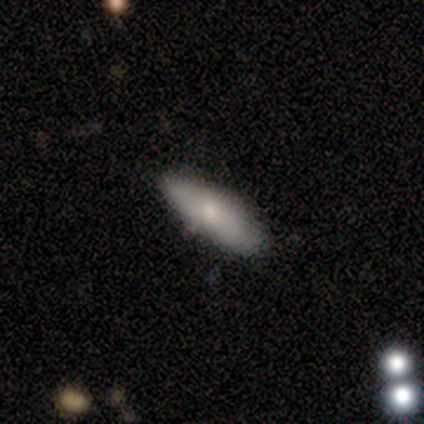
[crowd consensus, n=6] Q: Smooth or featured?
A: smooth (50%); runner-up: featured or disk (33%)
Q: How rounded?
A: in between (67%); runner-up: cigar-shaped (33%)
Q: Merging?
A: none (80%); runner-up: major disturbance (20%)